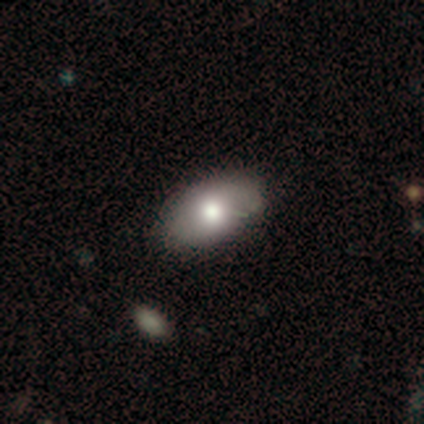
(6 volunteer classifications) Smooth or featured?
  - smooth: 67% *
  - featured or disk: 17%
  - star or artifact: 17%
How rounded?
  - in between: 100% *
  - round: 0%
  - cigar-shaped: 0%
Merging?
  - none: 60% *
  - minor disturbance: 40%
  - major disturbance: 0%
  - merger: 0%